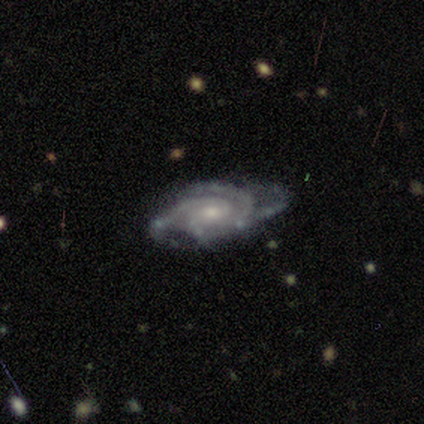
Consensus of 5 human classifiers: featured or disk 100%, smooth 0%, star or artifact 0%. Down the decision tree: edge-on disk — no (100%); bar — weak (60%); spiral arms — yes (100%); spiral arm count — 4 (80%); spiral winding — tight (80%); bulge size — moderate (60%); merging — none (60%).